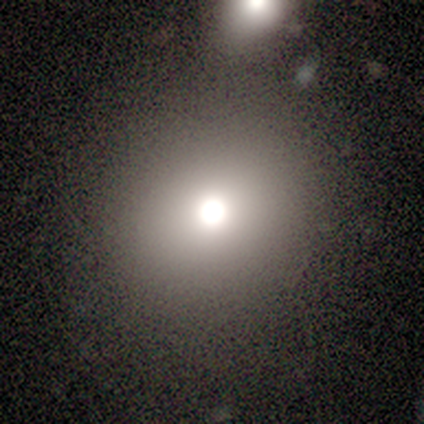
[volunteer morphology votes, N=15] This is likely a smooth galaxy (60%). How rounded: clearly round (100%). Merging: marginally none (42%).